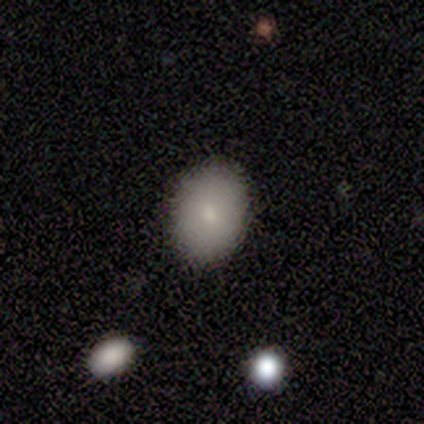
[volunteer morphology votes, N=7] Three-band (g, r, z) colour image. It shows a smooth galaxy with no disk features (86%) that is round (50%, tied with in between). Merging: none (86%).